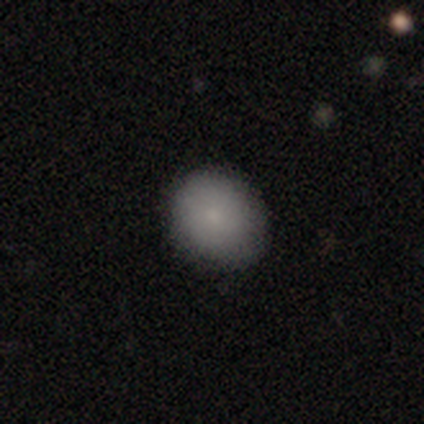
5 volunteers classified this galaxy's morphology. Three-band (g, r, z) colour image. It shows a smooth galaxy with no disk features (100%) that is round (60%). Merging: none (100%).